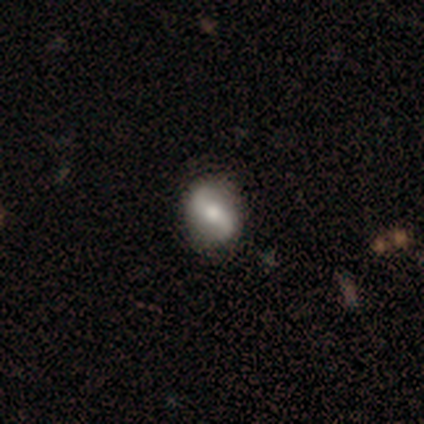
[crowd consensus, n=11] featured or disk 91%, smooth 9%, star or artifact 0%. Down the decision tree: edge-on disk — no (100%); bar — no (50%); spiral arms — yes (90%); spiral arm count — 2 (100%); spiral winding — loose (89%); bulge size — moderate (50%); merging — none (100%).